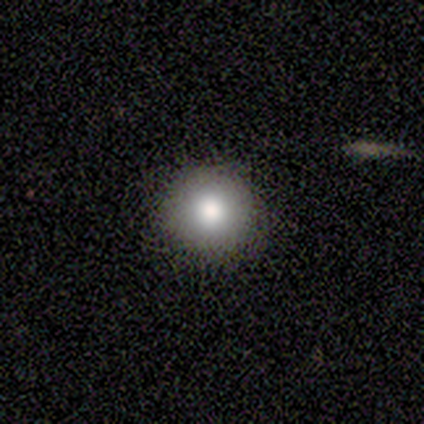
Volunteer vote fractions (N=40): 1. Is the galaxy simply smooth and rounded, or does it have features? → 82% smooth, 15% featured or disk, 2% star or artifact.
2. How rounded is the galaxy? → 97% round, 3% in between, 0% cigar-shaped.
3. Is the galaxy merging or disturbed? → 87% none, 13% minor disturbance, 0% major disturbance, 0% merger.